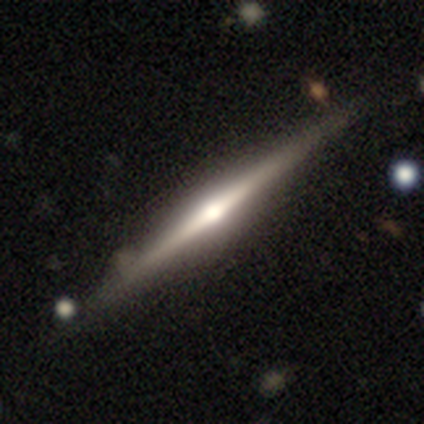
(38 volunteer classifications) smooth_or_featured: featured or disk (p=0.84) [alt: smooth p=0.16]
disk_edge_on: yes (p=1.00)
edge_on_bulge: rounded (p=0.84) [alt: boxy p=0.09]
merging: none (p=0.79) [alt: minor disturbance p=0.11]